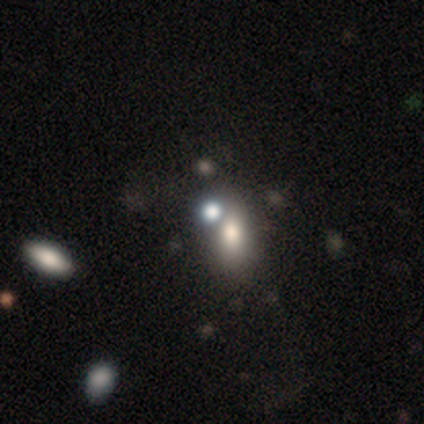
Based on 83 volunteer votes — Overall: smooth (58%; featured or disk 23%). How rounded: in between (71%). Merging: none (51%; merger 39%).